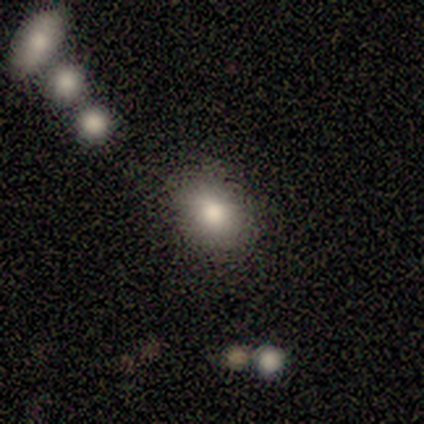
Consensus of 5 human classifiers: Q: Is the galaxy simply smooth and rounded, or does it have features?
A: smooth — 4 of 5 (80%).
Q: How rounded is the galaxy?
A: in between — 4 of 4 (100%).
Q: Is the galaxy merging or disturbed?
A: none — 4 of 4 (100%).